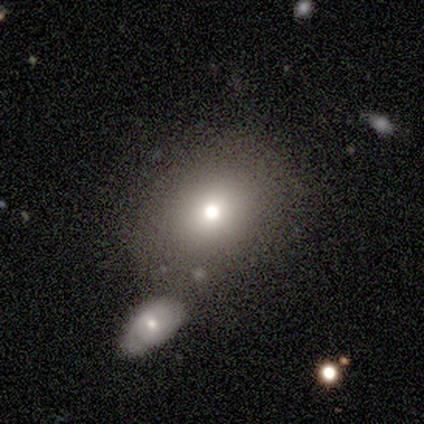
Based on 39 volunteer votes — Smooth or featured?
  - smooth: 87% *
  - star or artifact: 10%
  - featured or disk: 3%
How rounded?
  - in between: 53% *
  - round: 44%
  - cigar-shaped: 3%
Merging?
  - merger: 51% *
  - none: 0%
  - minor disturbance: 0%
  - major disturbance: 0%